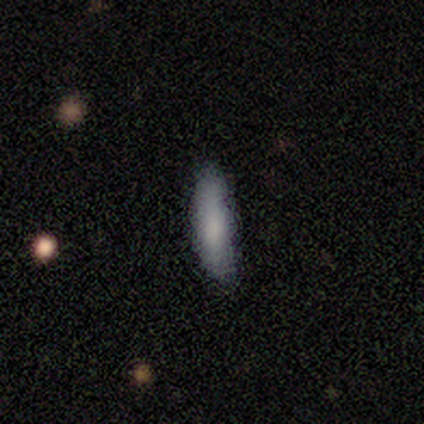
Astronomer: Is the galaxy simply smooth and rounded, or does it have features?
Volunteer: smooth — 100%.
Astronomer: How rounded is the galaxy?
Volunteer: cigar-shaped — 100%.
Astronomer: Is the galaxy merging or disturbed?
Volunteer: none — 50%.